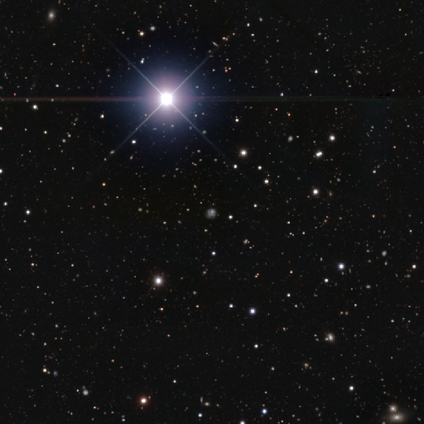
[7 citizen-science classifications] A star or artifact, not a galaxy (86%).